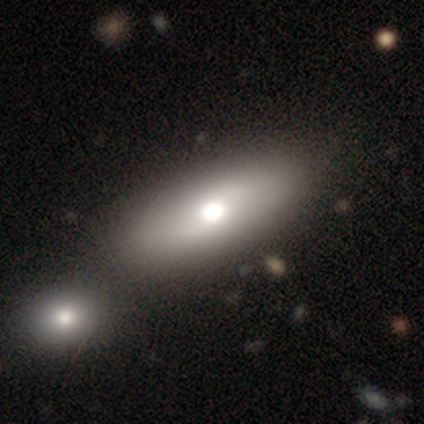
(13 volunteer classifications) This appears to be a smooth galaxy with no disk features (46%, tied with featured or disk) that is in between round and cigar-shaped (67%). Merging: none (67%).